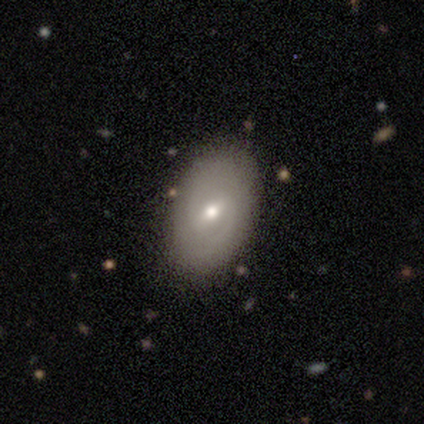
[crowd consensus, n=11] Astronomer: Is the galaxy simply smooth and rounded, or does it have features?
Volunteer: smooth — 45%, tied with featured or disk at 45%.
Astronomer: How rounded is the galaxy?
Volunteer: in between — 100%.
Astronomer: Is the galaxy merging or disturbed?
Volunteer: none — 50%.